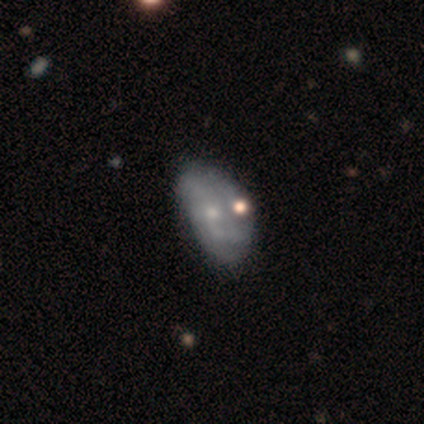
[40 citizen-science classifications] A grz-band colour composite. It shows a featured or disk galaxy (70%) with no bar (74%), loose (47%) spiral arms (63%) and a small central bulge (81%). Merging: none (32%).